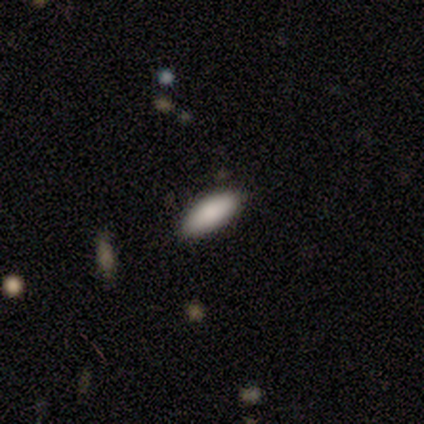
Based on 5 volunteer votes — This is clearly a smooth galaxy (80%). How rounded: clearly in between (100%). Merging: clearly none (100%).